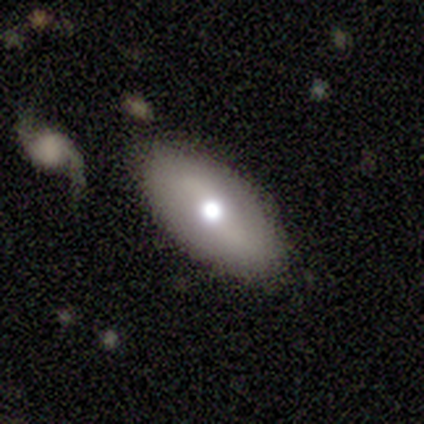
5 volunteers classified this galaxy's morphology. smooth-or-featured: featured or disk: 60% | smooth: 40% | star or artifact: 0%
  disk-edge-on: no: 67% | yes: 33%
    bar: weak: 50% (tied) | no: 50% (tied) | strong: 0%
    has-spiral-arms: no: 100% | yes: 0%
    bulge-size: moderate: 50% (tied) | small: 50% (tied) | dominant: 0% | large: 0% | none: 0%
  merging: none: 80% | minor disturbance: 20% | major disturbance: 0% | merger: 0%